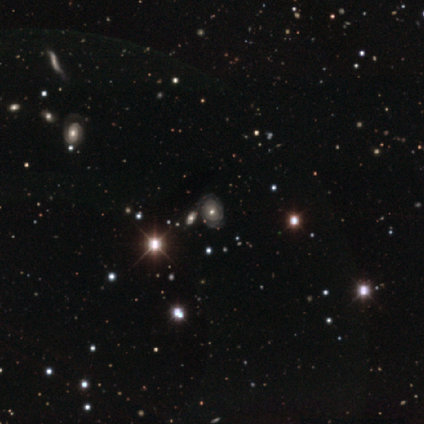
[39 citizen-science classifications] Morphology: type=featured or disk (51%); edge-on=no (90%); bar=no (83%); spiral arms=yes (83%); winding=tight (80%); arm count=can't tell (73%); bulge=moderate (50%); merging=none (68%).